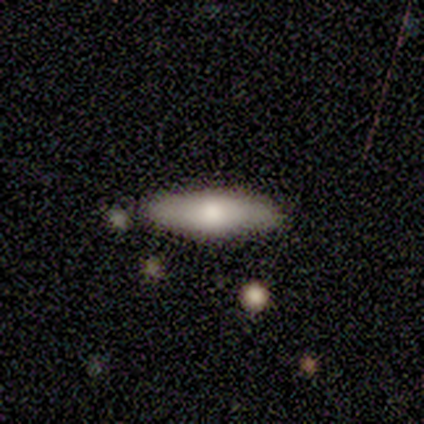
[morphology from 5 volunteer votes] type=smooth (80%); roundness=cigar-shaped (75%); merging=none (100%).